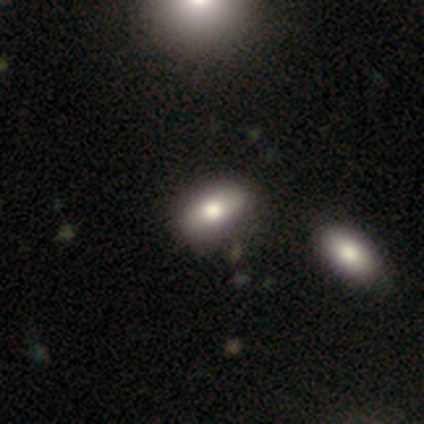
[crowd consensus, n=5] A smooth galaxy with no disk features (80%) that is in between round and cigar-shaped (75%). Merging: none (75%).